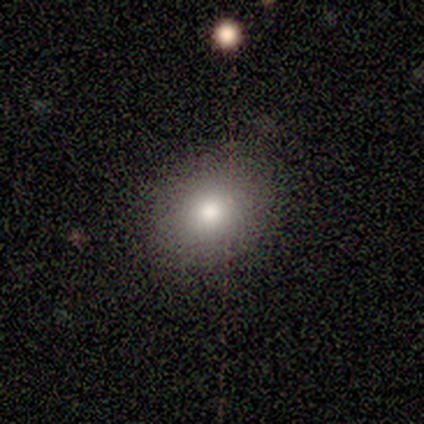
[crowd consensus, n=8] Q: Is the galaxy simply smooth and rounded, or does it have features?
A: smooth — 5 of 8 (62%).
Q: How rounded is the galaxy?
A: round — 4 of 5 (80%).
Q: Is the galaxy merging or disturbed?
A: none — 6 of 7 (86%).